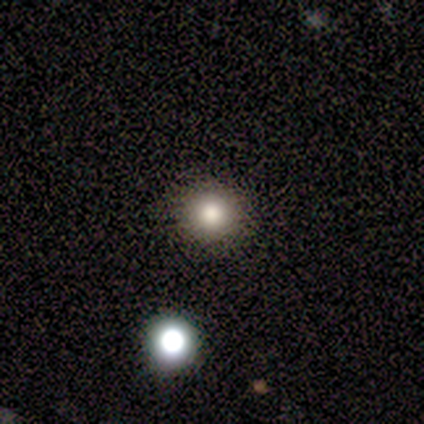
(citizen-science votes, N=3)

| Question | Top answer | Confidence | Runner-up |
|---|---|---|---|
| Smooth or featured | smooth | 100% | — |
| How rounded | round | 100% | — |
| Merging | none | 67% | minor disturbance (33%) |